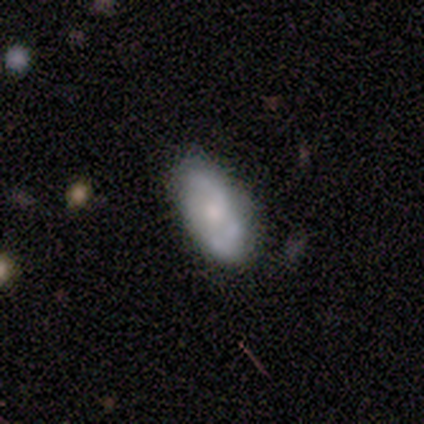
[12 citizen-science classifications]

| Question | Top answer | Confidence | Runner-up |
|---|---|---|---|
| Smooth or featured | featured or disk | 75% | star or artifact (17%) |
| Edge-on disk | no | 100% | — |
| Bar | no | 89% | weak (11%) |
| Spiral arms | no | 67% | yes (33%) |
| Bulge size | moderate | 67% | small (22%) |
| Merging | none | 70% | minor disturbance (20%) |